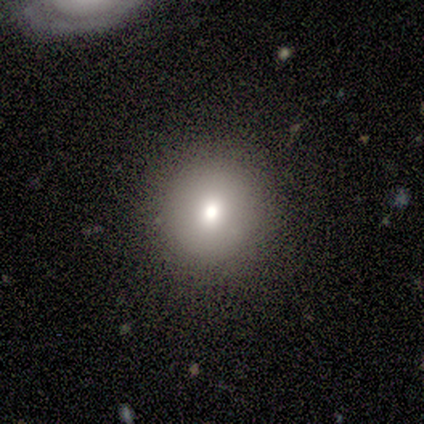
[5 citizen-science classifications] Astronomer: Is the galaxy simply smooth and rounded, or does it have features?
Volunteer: smooth — 80%.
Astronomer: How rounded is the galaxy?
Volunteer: round — 100%.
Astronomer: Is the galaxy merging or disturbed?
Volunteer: none — 80%.